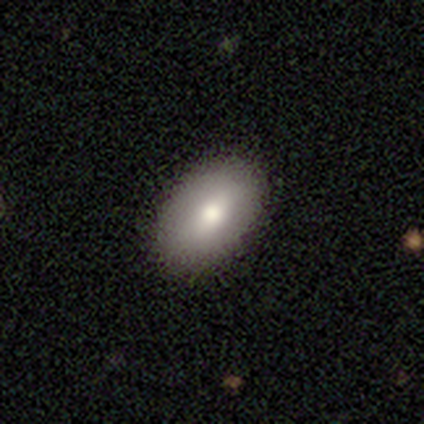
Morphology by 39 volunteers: This appears to be a smooth galaxy with no disk features (72%) that is in between round and cigar-shaped (93%). Merging: none (88%).